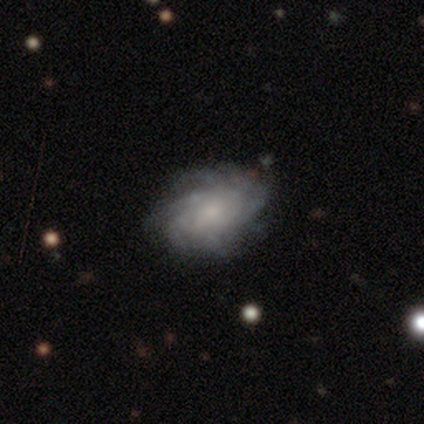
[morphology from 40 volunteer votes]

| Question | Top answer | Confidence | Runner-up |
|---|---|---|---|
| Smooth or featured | featured or disk | 85% | smooth (15%) |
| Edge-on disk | no | 100% | — |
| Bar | no | 68% | weak (32%) |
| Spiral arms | yes | 97% | no (3%) |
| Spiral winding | tight | 52% | medium (30%) |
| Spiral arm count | more than 4 | 64% | can't tell (30%) |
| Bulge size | small | 62% | moderate (24%) |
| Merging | none | 52% | minor disturbance (10%) |